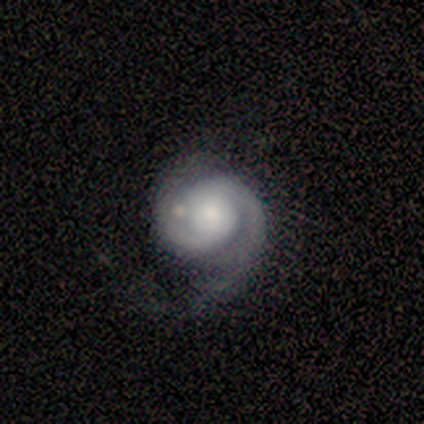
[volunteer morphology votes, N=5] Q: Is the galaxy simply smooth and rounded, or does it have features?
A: featured or disk — 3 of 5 (60%).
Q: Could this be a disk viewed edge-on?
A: no — 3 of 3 (100%).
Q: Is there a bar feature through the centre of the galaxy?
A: no — 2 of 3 (67%).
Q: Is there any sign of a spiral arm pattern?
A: yes — 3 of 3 (100%).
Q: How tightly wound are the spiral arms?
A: medium — 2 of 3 (67%).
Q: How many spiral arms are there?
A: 2 — 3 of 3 (100%).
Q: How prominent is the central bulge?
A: large — 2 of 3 (67%).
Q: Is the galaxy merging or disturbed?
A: none — 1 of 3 (33%, tied with minor disturbance and major disturbance).